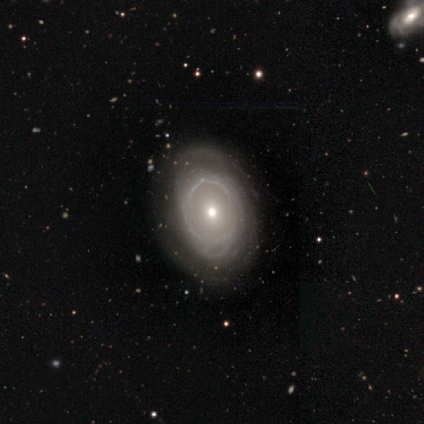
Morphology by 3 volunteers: featured or disk 67%, smooth 33%, star or artifact 0%. Down the decision tree: edge-on disk — no (100%); bar — no (100%); spiral arms — no (100%); bulge size — moderate (50%, tied with small); merging — none (67%).